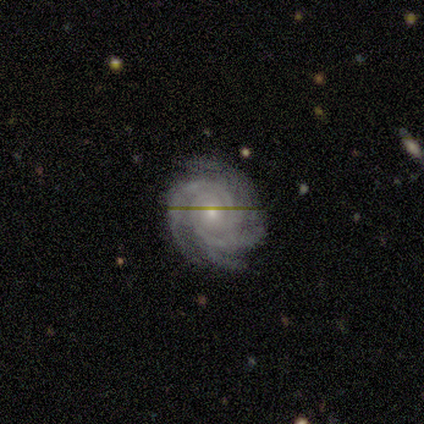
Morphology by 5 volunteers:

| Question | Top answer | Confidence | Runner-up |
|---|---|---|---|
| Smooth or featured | featured or disk | 80% | smooth (20%) |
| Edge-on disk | no | 100% | — |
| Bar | no | 50% | strong (25%) |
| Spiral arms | yes | 100% | — |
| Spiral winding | tight | 100% | — |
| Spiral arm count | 4 | 50% | 3 (25%) |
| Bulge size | small | 75% | moderate (25%) |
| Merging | none | 100% | — |